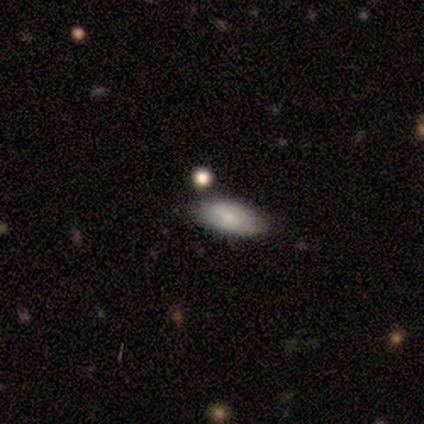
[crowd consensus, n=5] A smooth galaxy with no disk features (100%) that is in between round and cigar-shaped (100%). Merging: none (100%).